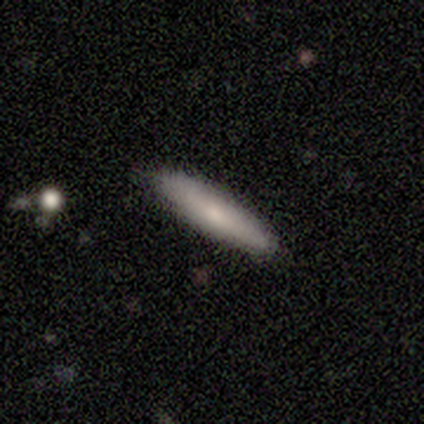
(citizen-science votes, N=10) Volunteers were most divided on "smooth or featured" (2-way tie): smooth: 50%, featured or disk: 50%, star or artifact: 0%. More confident: how rounded — cigar-shaped (100%); merging — none (100%).